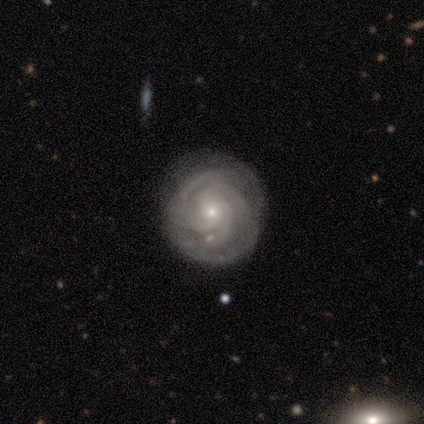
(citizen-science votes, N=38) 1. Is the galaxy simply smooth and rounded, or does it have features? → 87% featured or disk, 8% smooth, 5% star or artifact.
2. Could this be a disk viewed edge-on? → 97% no, 3% yes.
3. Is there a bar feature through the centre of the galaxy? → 78% no, 22% weak, 0% strong.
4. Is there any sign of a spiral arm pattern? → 97% yes, 3% no.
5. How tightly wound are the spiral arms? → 71% tight, 23% medium, 6% loose.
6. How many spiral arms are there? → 45% 3, 23% can't tell, 13% 4, 13% more than 4, 6% 2, 0% 1.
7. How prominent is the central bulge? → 81% small, 19% moderate, 0% dominant, 0% large, 0% none.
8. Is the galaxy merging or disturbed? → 89% none, 8% minor disturbance, 3% major disturbance, 0% merger.